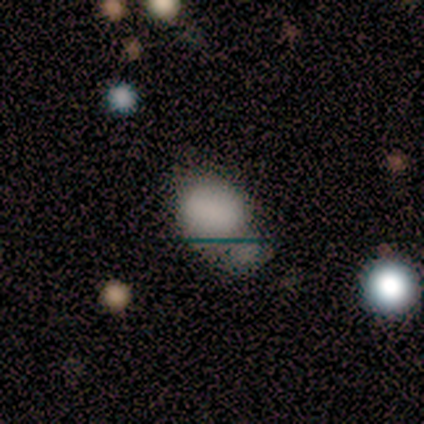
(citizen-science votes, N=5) smooth_or_featured: smooth (p=0.60) [alt: featured or disk p=0.20]
how_rounded: round (p=0.67) [alt: in between p=0.33]
merging: merger (p=0.75) [alt: none p=0.25]